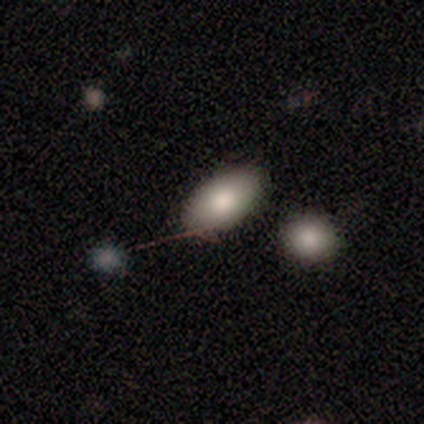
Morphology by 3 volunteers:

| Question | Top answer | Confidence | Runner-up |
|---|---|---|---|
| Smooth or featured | smooth | 67% | featured or disk (33%) |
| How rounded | in between | 100% | — |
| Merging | none | 67% | major disturbance (33%) |